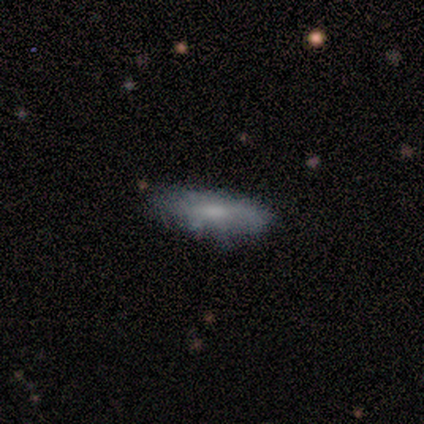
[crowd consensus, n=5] featured or disk 60%, smooth 20%, star or artifact 20%. Down the decision tree: edge-on disk — no (67%); bar — no (100%); spiral arms — yes (50%, tied with no); spiral arm count — 2 (100%); spiral winding — medium (100%); bulge size — moderate (50%, tied with small); merging — none (50%).